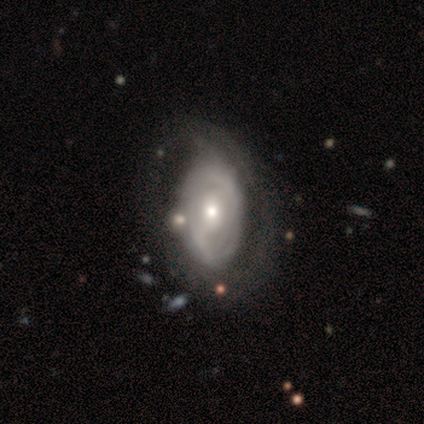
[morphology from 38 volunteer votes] Overall: featured or disk (68%). Edge-on disk: no (96%). Bar: weak (48%; no 44%). Spiral arms: yes (60%; no 40%). Spiral arm count: can't tell (60%; 2 40%). Spiral winding: tight (40%, tied with loose). Bulge size: moderate (52%; small 48%). Merging: none (46%; minor disturbance 31%).